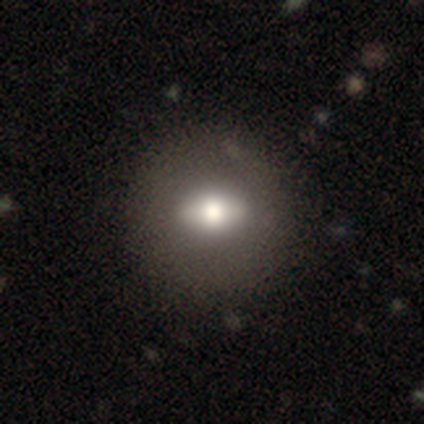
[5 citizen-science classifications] Smooth or featured? 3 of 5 (60%) said featured or disk. Edge-on disk? 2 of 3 (67%) said no. Bar? 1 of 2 (50%, tied with no) said strong. Spiral arms? 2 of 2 (100%) said no. Bulge size? 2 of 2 (100%) said large. Merging? 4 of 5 (80%) said none.